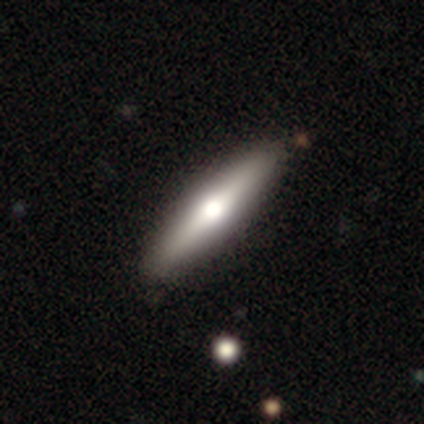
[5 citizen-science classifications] A smooth galaxy with no disk features (80%) that is cigar-shaped (75%).

Vote fractions:
- Smooth or featured? smooth: 80% / featured or disk: 20% / star or artifact: 0%
- How rounded? cigar-shaped: 75% / in between: 25% / round: 0%
- Merging? none: 100% / minor disturbance: 0% / major disturbance: 0% / merger: 0%